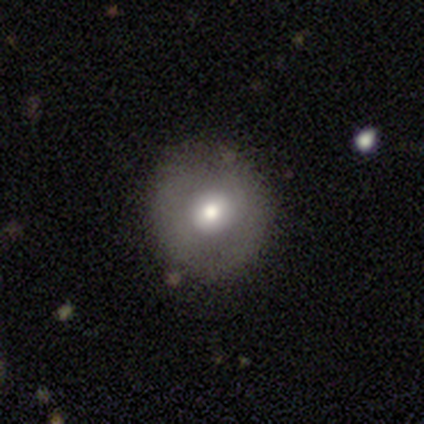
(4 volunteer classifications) A smooth galaxy with no disk features (75%) that is round (100%).

Vote fractions:
- Smooth or featured? smooth: 75% / featured or disk: 25% / star or artifact: 0%
- How rounded? round: 100% / in between: 0% / cigar-shaped: 0%
- Merging? none: 100% / minor disturbance: 0% / major disturbance: 0% / merger: 0%